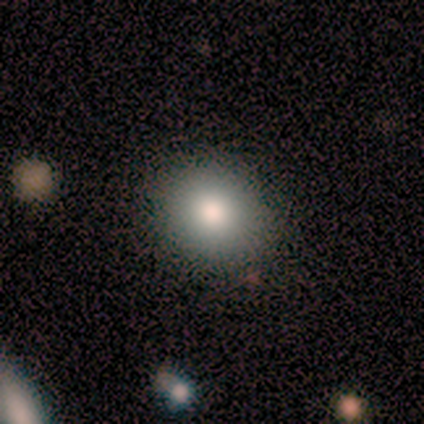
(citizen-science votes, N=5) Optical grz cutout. It shows a smooth galaxy with no disk features (100%) that is round (60%). Merging: none (100%).